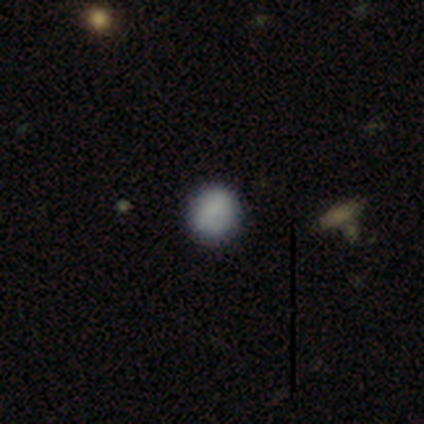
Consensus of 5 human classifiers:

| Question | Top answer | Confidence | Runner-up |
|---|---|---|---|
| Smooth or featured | smooth | 100% | — |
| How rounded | round | 80% | in between (20%) |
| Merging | none | 100% | — |